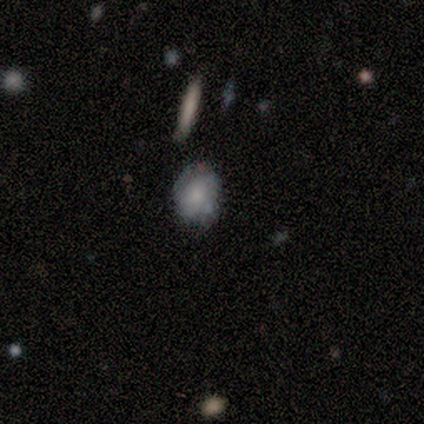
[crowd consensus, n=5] A smooth galaxy with no disk features (60%) that is in between round and cigar-shaped (67%).

Vote fractions:
- Smooth or featured? smooth: 60% / featured or disk: 40% / star or artifact: 0%
- How rounded? in between: 67% / round: 33% / cigar-shaped: 0%
- Merging? none: 40% (tied) / minor disturbance: 40% (tied) / major disturbance: 20% / merger: 0%